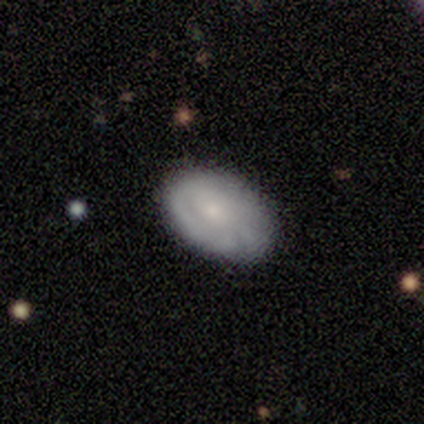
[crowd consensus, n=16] Q: Smooth or featured?
A: featured or disk (50%); runner-up: smooth (44%)
Q: Edge-on disk?
A: no (100%)
Q: Bar?
A: no (100%)
Q: Spiral arms?
A: yes (50%); tied with: no (50%)
Q: Spiral winding?
A: tight (75%); runner-up: medium (25%)
Q: Spiral arm count?
A: can't tell (50%); runner-up: 3 (25%)
Q: Bulge size?
A: small (50%); runner-up: moderate (38%)
Q: Merging?
A: none (93%); runner-up: minor disturbance (7%)